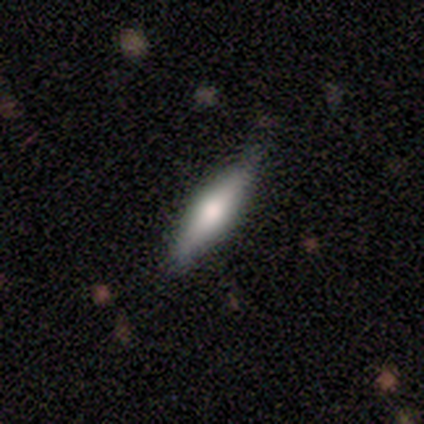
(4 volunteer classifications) This appears to be a smooth galaxy with no disk features (50%, tied with featured or disk) that is in between round and cigar-shaped (50%, tied with cigar-shaped). Merging: none (75%).